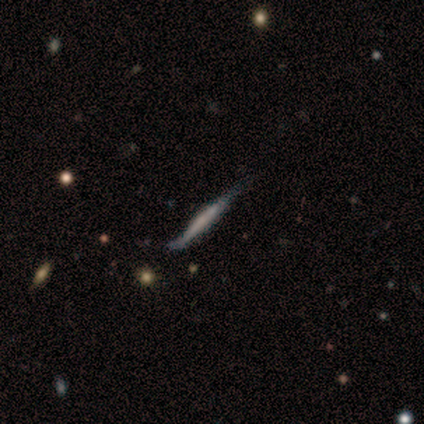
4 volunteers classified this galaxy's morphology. smooth 50% (tied), featured or disk 50% (tied), star or artifact 0%. Down the decision tree: how rounded — in between (50%, tied with cigar-shaped); merging — none (75%).